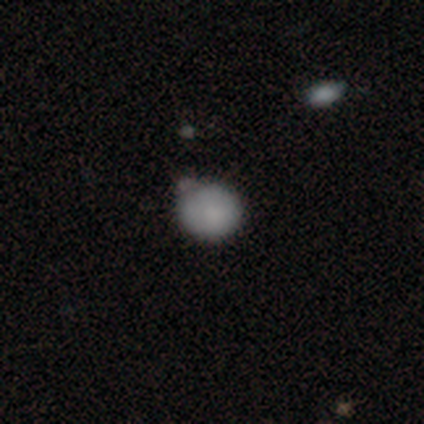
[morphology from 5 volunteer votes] A smooth galaxy with no disk features (100%) that is in between round and cigar-shaped (60%). Merging: none (60%).